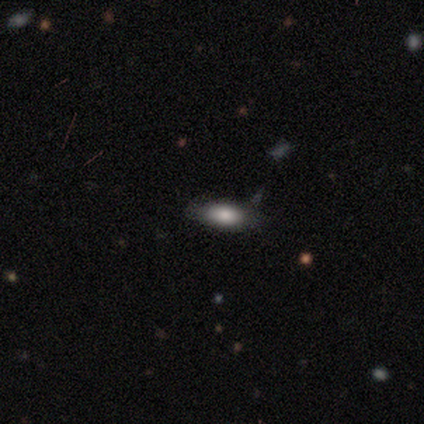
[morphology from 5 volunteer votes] Smooth or featured? smooth (80%)
How rounded? in between (75%)
Merging? none (50%, tied with minor disturbance)